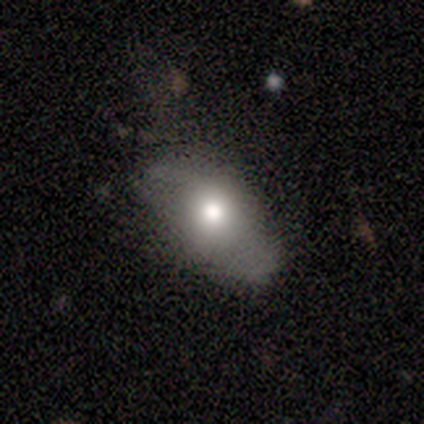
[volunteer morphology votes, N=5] This appears to be a smooth galaxy with no disk features (40%, tied with featured or disk) that is in between round and cigar-shaped (100%). Merging: none (75%).